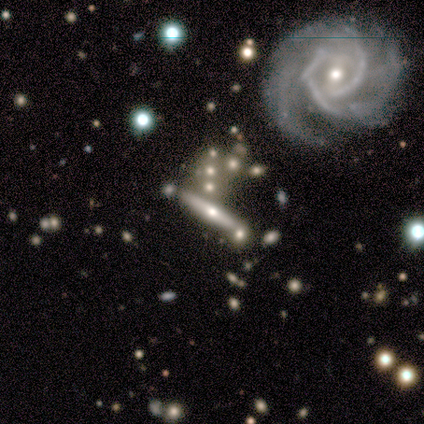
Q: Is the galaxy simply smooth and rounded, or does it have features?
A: smooth — 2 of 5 (40%, tied with featured or disk).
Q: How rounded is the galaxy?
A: cigar-shaped — 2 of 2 (100%).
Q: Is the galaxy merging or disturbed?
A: none — 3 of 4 (75%).